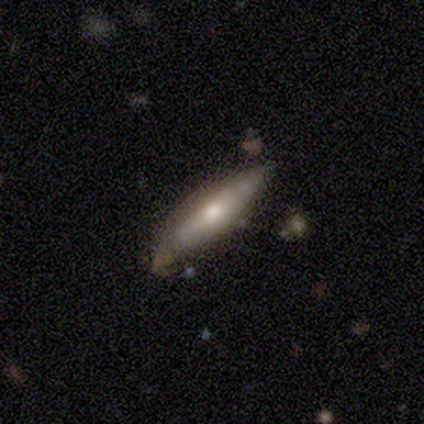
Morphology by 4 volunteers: Overall: smooth (50%, tied with featured or disk). How rounded: cigar-shaped (100%). Merging: none (100%).